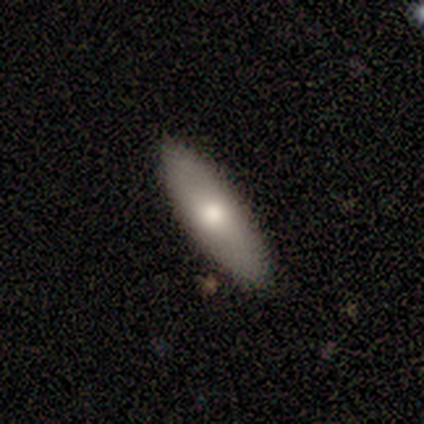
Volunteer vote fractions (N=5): Q: Smooth or featured?
A: featured or disk (60%); runner-up: smooth (40%)
Q: Edge-on disk?
A: yes (67%); runner-up: no (33%)
Q: Edge-on bulge?
A: none (50%); tied with: rounded (50%)
Q: Merging?
A: none (80%); runner-up: minor disturbance (20%)